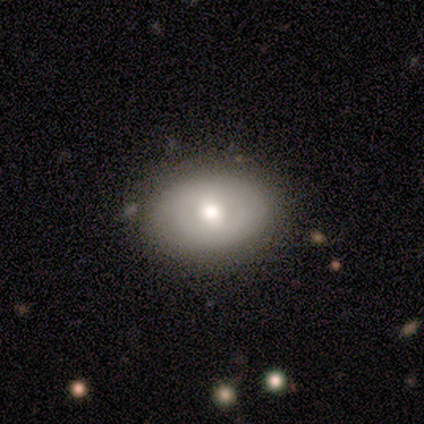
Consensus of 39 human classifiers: This is likely a smooth galaxy (69%). How rounded: likely in between (78%). Merging: clearly none (82%).